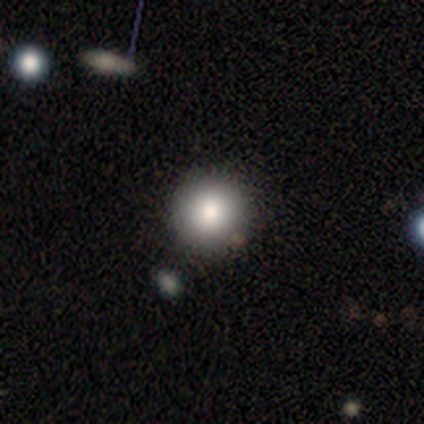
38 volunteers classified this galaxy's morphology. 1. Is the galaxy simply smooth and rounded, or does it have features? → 79% smooth, 16% star or artifact, 5% featured or disk.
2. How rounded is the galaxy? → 97% round, 3% in between, 0% cigar-shaped.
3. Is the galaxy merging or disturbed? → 84% none, 12% merger, 3% minor disturbance, 0% major disturbance.